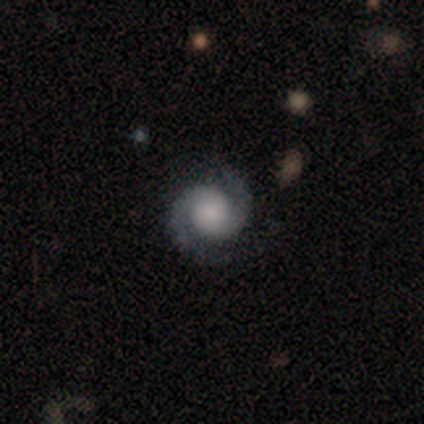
Morphology: type=featured or disk (100%); edge-on=no (100%); bar=no (100%); spiral arms=yes (100%); winding=medium (60%); arm count=2 (100%); bulge=dominant (40%, tied with large); merging=none (80%).